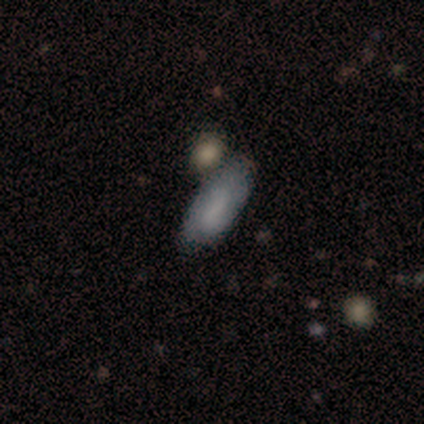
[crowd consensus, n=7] Morphology: type=smooth (71%); roundness=in between (80%); merging=none (67%).